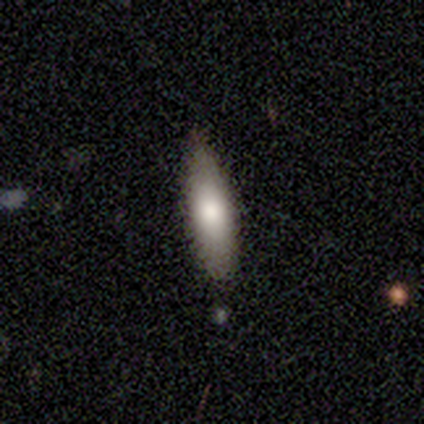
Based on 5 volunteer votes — Overall: smooth (40%, tied with featured or disk). How rounded: in between (50%, tied with cigar-shaped). Merging: none (100%).